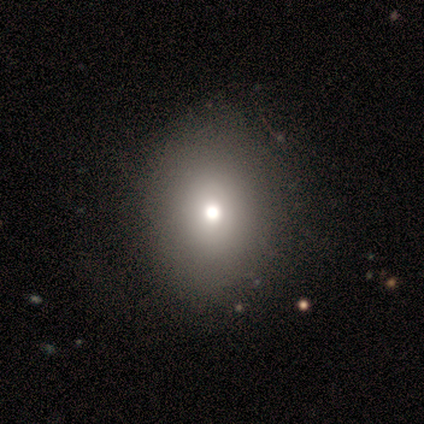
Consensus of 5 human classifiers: Q: Smooth or featured?
A: smooth (100%)
Q: How rounded?
A: in between (60%); runner-up: round (40%)
Q: Merging?
A: none (100%)